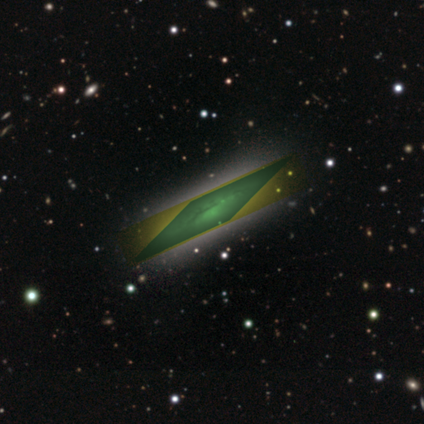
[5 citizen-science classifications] Smooth or featured: star or artifact — 100%